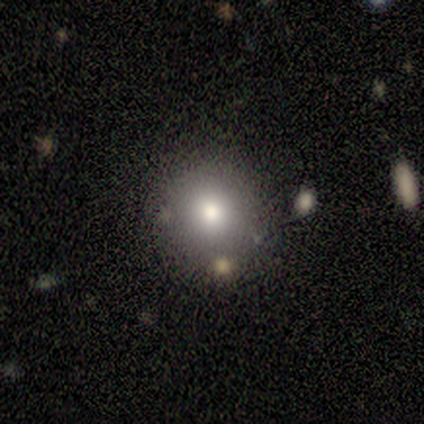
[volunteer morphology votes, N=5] Smooth or featured? 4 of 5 (80%) said smooth. How rounded? 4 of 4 (100%) said round. Merging? 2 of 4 (50%, tied with merger) said none.